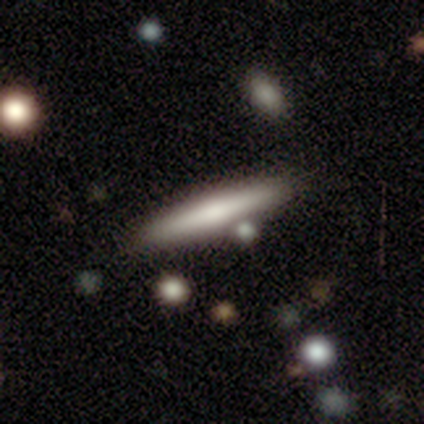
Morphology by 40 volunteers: featured or disk 57%, smooth 35%, star or artifact 8%. Down the decision tree: edge-on disk — yes (96%); edge-on bulge — rounded (64%); merging — none (76%).